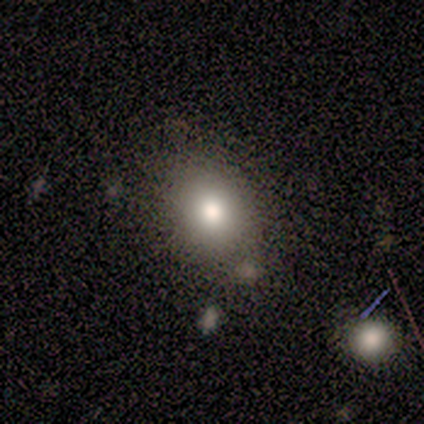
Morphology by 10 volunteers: type=smooth (50%); roundness=round (100%); merging=none (71%).